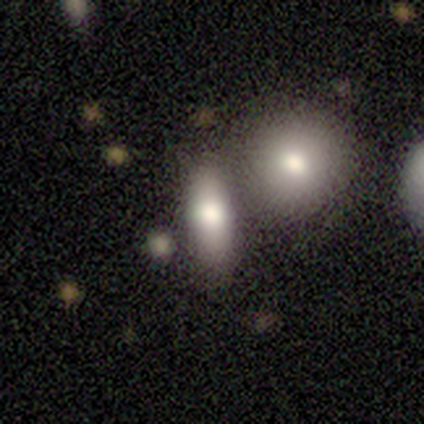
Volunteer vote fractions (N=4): Smooth or featured? smooth (100%)
How rounded? in between (75%)
Merging? none (50%, tied with merger)